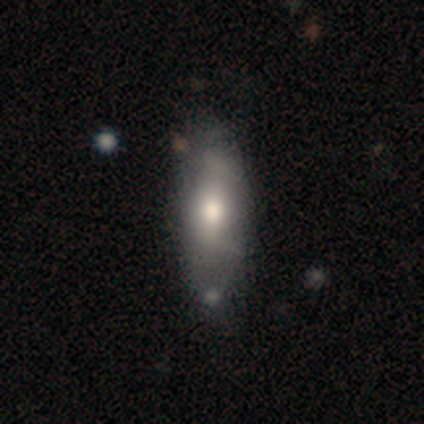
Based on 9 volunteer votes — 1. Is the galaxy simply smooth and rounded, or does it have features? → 78% smooth, 22% featured or disk, 0% star or artifact.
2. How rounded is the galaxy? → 71% in between, 29% cigar-shaped, 0% round.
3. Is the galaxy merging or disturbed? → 78% none, 11% minor disturbance, 11% major disturbance, 0% merger.